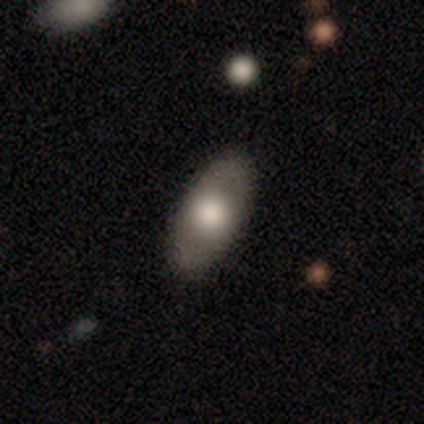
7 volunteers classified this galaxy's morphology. Smooth or featured: smooth — 57% (featured or disk — 43%)
How rounded: in between — 100%
Merging: none — 100%